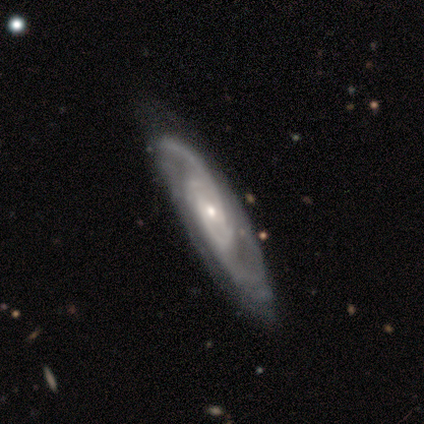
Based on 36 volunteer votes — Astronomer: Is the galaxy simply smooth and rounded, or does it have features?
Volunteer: featured or disk — 97%.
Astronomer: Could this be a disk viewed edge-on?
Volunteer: no — 94%.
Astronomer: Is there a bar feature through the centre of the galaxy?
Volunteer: no — 42% (runner-up: weak, 36%).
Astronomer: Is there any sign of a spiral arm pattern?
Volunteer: yes — 100%.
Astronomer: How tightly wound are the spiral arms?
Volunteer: medium — 58%.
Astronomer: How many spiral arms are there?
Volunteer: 2 — 52% (runner-up: can't tell, 27%).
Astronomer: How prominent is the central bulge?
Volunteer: small — 58% (runner-up: moderate, 36%).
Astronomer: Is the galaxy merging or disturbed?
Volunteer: none — 58%.